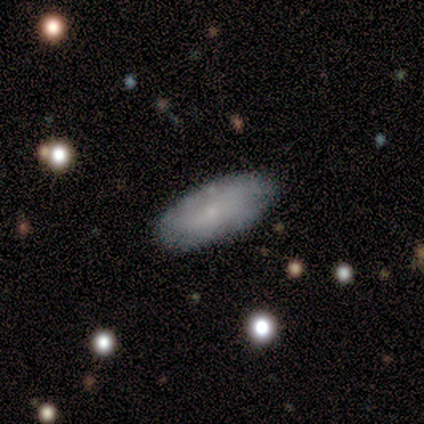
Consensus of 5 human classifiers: smooth-or-featured: smooth: 80% | featured or disk: 20% | star or artifact: 0%
  how-rounded: in between: 100% | round: 0% | cigar-shaped: 0%
  merging: none: 100% | minor disturbance: 0% | major disturbance: 0% | merger: 0%